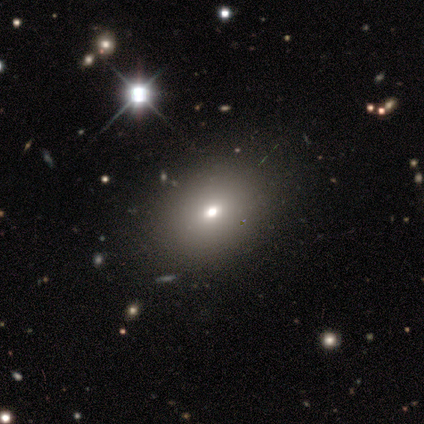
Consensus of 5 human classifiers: smooth_or_featured: smooth (p=0.80) [alt: star or artifact p=0.20]
how_rounded: in between (p=0.75) [alt: round p=0.25]
merging: none (p=1.00)